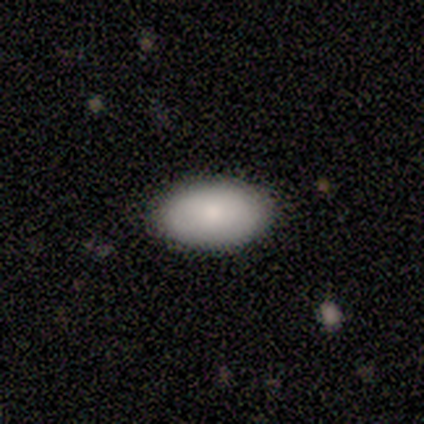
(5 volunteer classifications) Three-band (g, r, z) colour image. It shows a smooth galaxy with no disk features (80%) that is in between round and cigar-shaped (100%). Merging: none (100%).